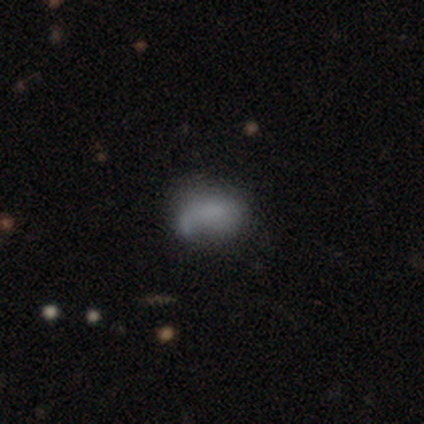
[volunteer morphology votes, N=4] smooth_or_featured: smooth (p=0.50) [alt: featured or disk p=0.25]
how_rounded: round (p=0.50) [tied with: in between p=0.50]
merging: none (p=0.33) [tied with: major disturbance p=0.33, merger p=0.33]